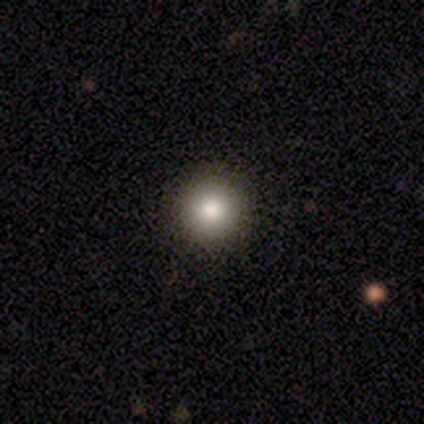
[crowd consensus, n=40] This appears to be a smooth galaxy with no disk features (90%) that is round (97%). Merging: none (53%).